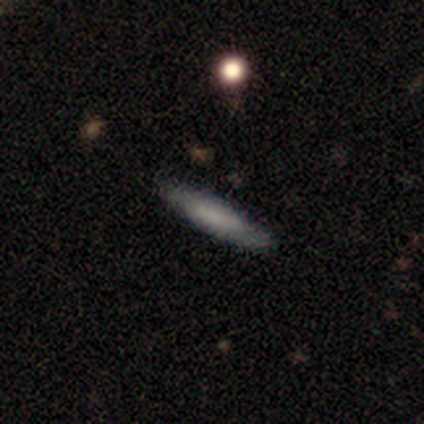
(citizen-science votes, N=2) A smooth galaxy with no disk features (100%) that is cigar-shaped (100%).

Vote fractions:
- Smooth or featured? smooth: 100% / featured or disk: 0% / star or artifact: 0%
- How rounded? cigar-shaped: 100% / round: 0% / in between: 0%
- Merging? none: 50% (tied) / minor disturbance: 50% (tied) / major disturbance: 0% / merger: 0%